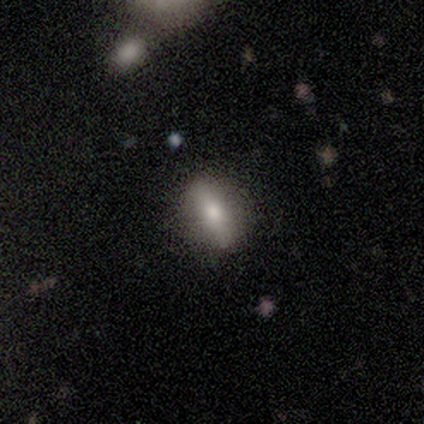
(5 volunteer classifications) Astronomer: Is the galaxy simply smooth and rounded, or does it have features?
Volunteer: smooth — 80%.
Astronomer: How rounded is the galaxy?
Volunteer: in between — 75%.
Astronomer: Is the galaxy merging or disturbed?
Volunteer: none — 100%.